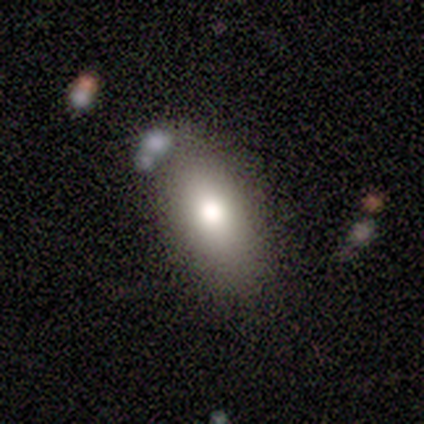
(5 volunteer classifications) Smooth or featured? 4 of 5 (80%) said smooth. How rounded? 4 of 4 (100%) said in between. Merging? 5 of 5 (100%) said none.